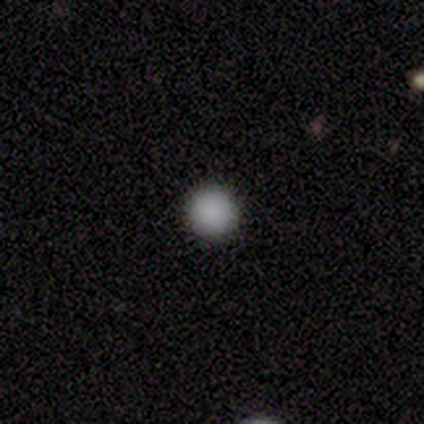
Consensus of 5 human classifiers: Smooth or featured: smooth — 100%
How rounded: round — 100%
Merging: none — 80% (major disturbance — 20%)